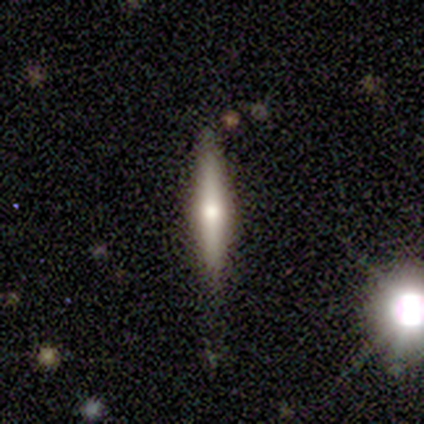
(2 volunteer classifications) Morphology: type=smooth (50%, tied with featured or disk); roundness=cigar-shaped (100%); merging=none (50%, tied with merger).